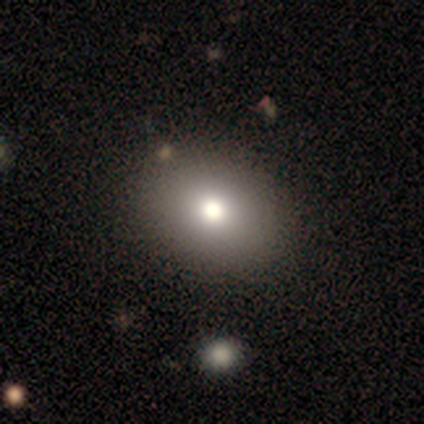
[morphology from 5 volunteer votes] Smooth or featured? 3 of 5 (60%) said smooth. How rounded? 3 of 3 (100%) said in between. Merging? 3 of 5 (60%) said none.